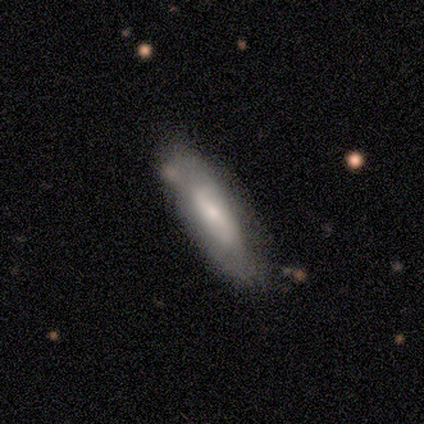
Volunteers were most divided on "bulge size": small: 50%, moderate: 44%, large: 6%, dominant: 0%, none: 0%. More confident: spiral arms — yes (83%); spiral arm count — 2 (80%); edge-on disk — no (72%); smooth or featured — featured or disk (64%); bar — weak (56%); spiral winding — loose (53%); merging — none (50%).